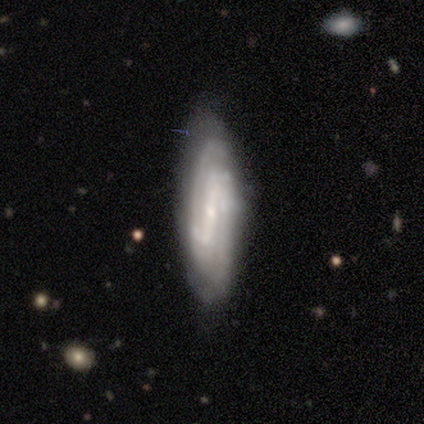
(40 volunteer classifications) Morphology: type=featured or disk (68%); edge-on=no (85%); bar=strong (78%); spiral arms=yes (100%); winding=tight (48%); arm count=2 (65%); bulge=small (74%); merging=none (74%).